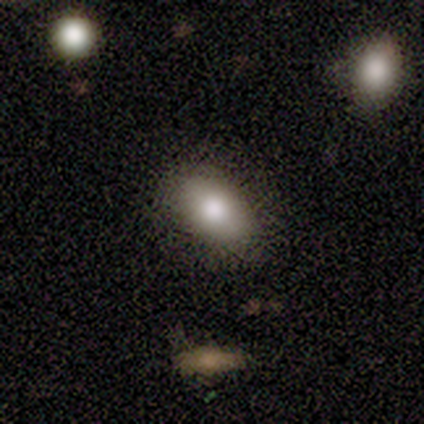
Q: Smooth or featured?
A: smooth (60%); runner-up: featured or disk (40%)
Q: How rounded?
A: in between (100%)
Q: Merging?
A: none (60%); runner-up: minor disturbance (40%)